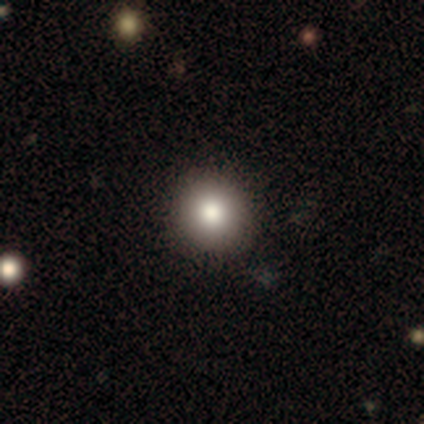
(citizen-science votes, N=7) Morphology: type=smooth (100%); roundness=round (100%); merging=none (100%).